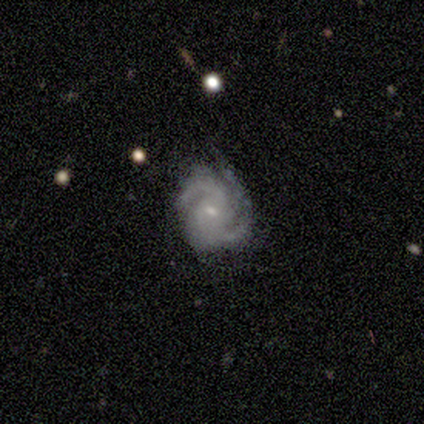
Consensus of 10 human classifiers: Smooth or featured? 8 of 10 (80%) said featured or disk. Edge-on disk? 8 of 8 (100%) said no. Bar? 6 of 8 (75%) said weak. Spiral arms? 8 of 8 (100%) said yes. Spiral winding? 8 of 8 (100%) said medium. Spiral arm count? 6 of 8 (75%) said 2. Bulge size? 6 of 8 (75%) said small. Merging? 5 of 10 (50%) said minor disturbance.